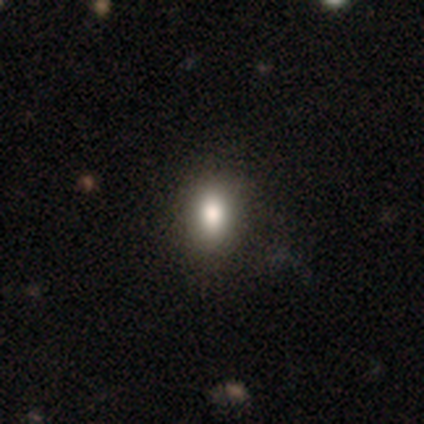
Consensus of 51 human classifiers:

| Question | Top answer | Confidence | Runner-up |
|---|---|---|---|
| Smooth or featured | smooth | 82% | featured or disk (10%) |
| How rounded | in between | 79% | round (21%) |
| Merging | none | 85% | minor disturbance (15%) |